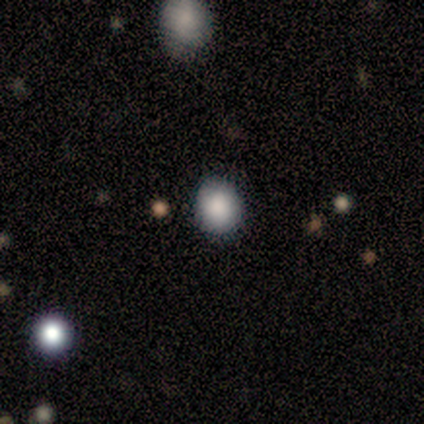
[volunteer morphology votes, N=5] smooth-or-featured: featured or disk: 40% (tied) | star or artifact: 40% (tied) | smooth: 20%
  disk-edge-on: no: 100% | yes: 0%
    bar: no: 100% | strong: 0% | weak: 0%
    has-spiral-arms: yes: 50% (tied) | no: 50% (tied)
      spiral-winding: loose: 100% | tight: 0% | medium: 0%
      spiral-arm-count: 1: 100% | 2: 0% | 3: 0% | 4: 0% | more than 4: 0% | can't tell: 0%
    bulge-size: moderate: 50% (tied) | small: 50% (tied) | dominant: 0% | large: 0% | none: 0%
  merging: none: 100% | minor disturbance: 0% | major disturbance: 0% | merger: 0%